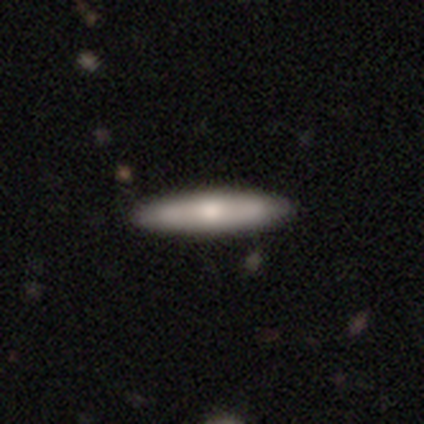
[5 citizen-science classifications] smooth_or_featured: smooth (p=0.60) [alt: featured or disk p=0.40]
how_rounded: cigar-shaped (p=0.67) [alt: in between p=0.33]
merging: none (p=1.00)